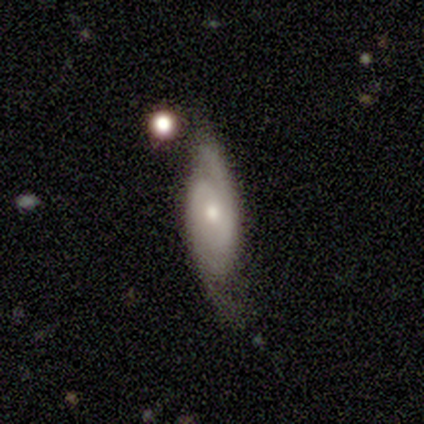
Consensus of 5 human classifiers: Smooth or featured?
  - featured or disk: 100% *
  - smooth: 0%
  - star or artifact: 0%
Edge-on disk?
  - no: 80% *
  - yes: 20%
Bar?
  - no: 100% *
  - strong: 0%
  - weak: 0%
Spiral arms?
  - yes: 100% *
  - no: 0%
Spiral winding?
  - tight: 50% * (tied)
  - loose: 50% * (tied)
  - medium: 0%
Spiral arm count?
  - 2: 75% *
  - can't tell: 25%
  - 1: 0%
  - 3: 0%
  - 4: 0%
  - more than 4: 0%
Bulge size?
  - small: 75% *
  - moderate: 25%
  - dominant: 0%
  - large: 0%
  - none: 0%
Merging?
  - none: 80% *
  - minor disturbance: 20%
  - major disturbance: 0%
  - merger: 0%